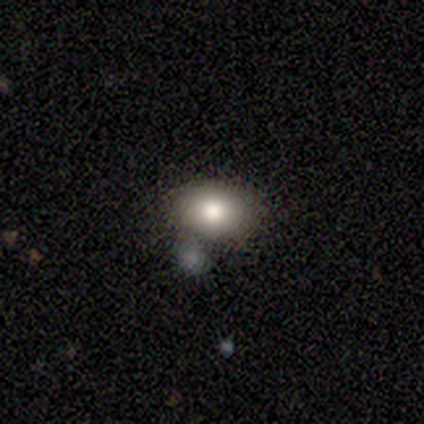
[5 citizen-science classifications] This appears to be a smooth galaxy with no disk features (60%) that is round (67%). Merging: none (60%).